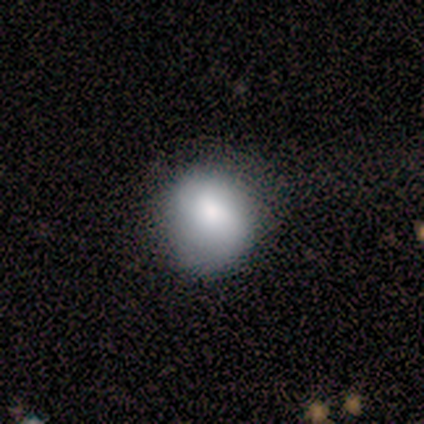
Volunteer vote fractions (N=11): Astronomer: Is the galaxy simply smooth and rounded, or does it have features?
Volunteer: smooth — 64%.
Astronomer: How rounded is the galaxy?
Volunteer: round — 100%.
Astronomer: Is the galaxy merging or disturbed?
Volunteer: none — 80%.